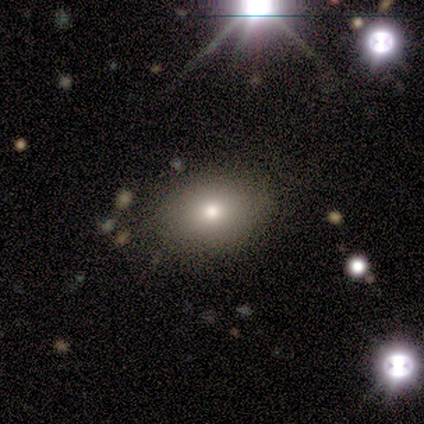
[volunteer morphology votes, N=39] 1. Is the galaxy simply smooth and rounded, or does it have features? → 69% smooth, 21% star or artifact, 10% featured or disk.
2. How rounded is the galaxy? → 81% in between, 15% round, 4% cigar-shaped.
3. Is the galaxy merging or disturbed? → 81% none, 13% minor disturbance, 3% major disturbance, 3% merger.